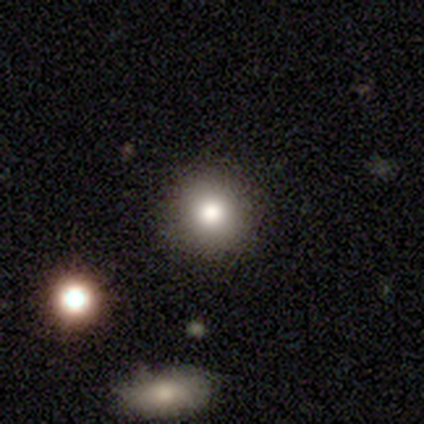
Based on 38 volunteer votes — Morphology: type=smooth (82%); roundness=round (87%); merging=none (97%).